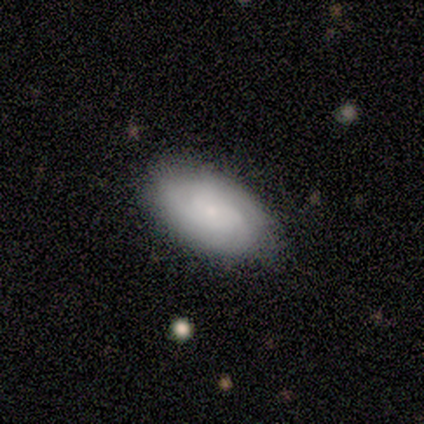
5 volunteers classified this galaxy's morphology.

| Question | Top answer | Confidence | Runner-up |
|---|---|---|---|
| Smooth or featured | smooth | 80% | featured or disk (20%) |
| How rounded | in between | 100% | — |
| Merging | none | 60% | minor disturbance (40%) |